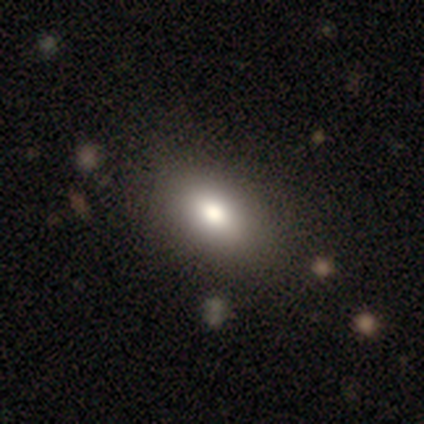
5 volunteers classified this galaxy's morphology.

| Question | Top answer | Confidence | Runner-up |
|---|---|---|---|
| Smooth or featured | smooth | 80% | star or artifact (20%) |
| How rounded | in between | 100% | — |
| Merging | none | 75% | major disturbance (25%) |